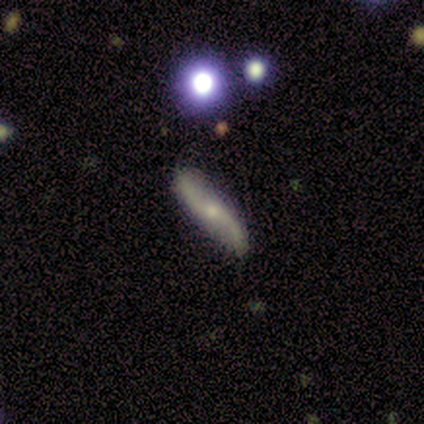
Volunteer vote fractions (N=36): smooth-or-featured: featured or disk: 67% | smooth: 19% | star or artifact: 14%
  disk-edge-on: no: 67% | yes: 33%
    bar: no: 62% | strong: 19% | weak: 19%
    has-spiral-arms: yes: 94% | no: 6%
      spiral-winding: loose: 93% | tight: 7% | medium: 0%
      spiral-arm-count: 2: 93% | 1: 7% | 3: 0% | 4: 0% | more than 4: 0% | can't tell: 0%
    bulge-size: small: 56% | moderate: 31% | large: 6% | none: 6% | dominant: 0%
  merging: none: 90% | minor disturbance: 10% | major disturbance: 0% | merger: 0%